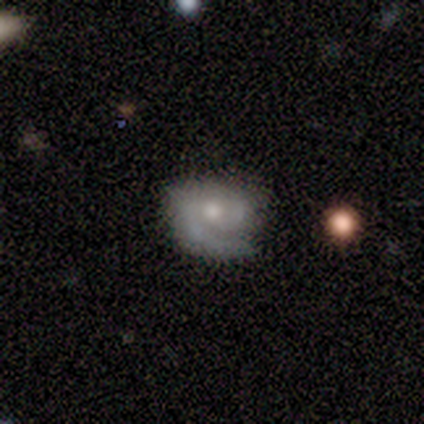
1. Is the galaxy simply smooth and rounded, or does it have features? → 80% featured or disk, 20% smooth, 0% star or artifact.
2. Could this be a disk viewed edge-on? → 100% no, 0% yes.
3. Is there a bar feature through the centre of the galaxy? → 75% no, 25% weak, 0% strong.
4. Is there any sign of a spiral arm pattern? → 100% yes, 0% no.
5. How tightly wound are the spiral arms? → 75% tight, 25% loose, 0% medium.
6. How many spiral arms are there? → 75% 2, 25% 1, 0% 3, 0% 4, 0% more than 4, 0% can't tell.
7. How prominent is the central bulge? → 50% moderate, 25% large, 25% small, 0% dominant, 0% none.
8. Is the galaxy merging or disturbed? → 40% none (tied), 40% minor disturbance (tied), 20% merger, 0% major disturbance.